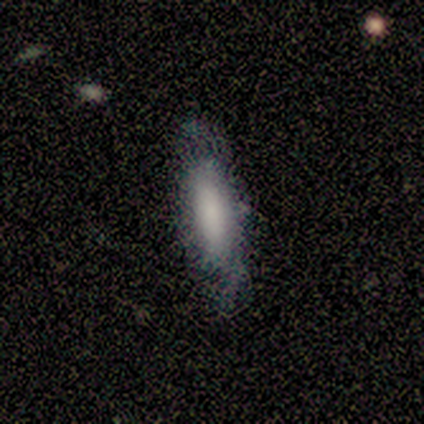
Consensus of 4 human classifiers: Smooth or featured? 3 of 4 (75%) said smooth. How rounded? 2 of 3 (67%) said cigar-shaped. Merging? 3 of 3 (100%) said none.